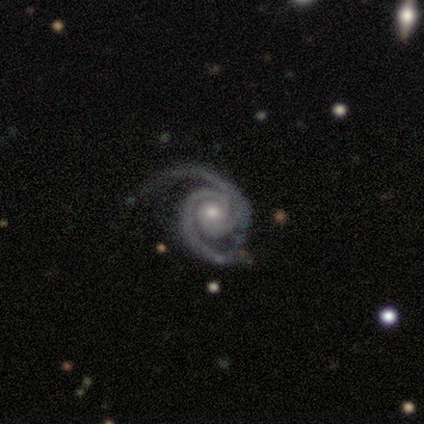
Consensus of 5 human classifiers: Overall: featured or disk (100%). Edge-on disk: no (100%). Bar: no (100%). Spiral arms: yes (100%). Spiral arm count: 1 (60%; 2 40%). Spiral winding: tight (60%; medium 40%). Bulge size: moderate (60%; small 40%). Merging: none (60%; minor disturbance 40%).